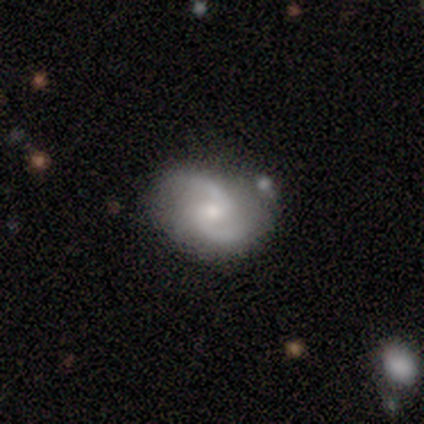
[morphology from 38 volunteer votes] Volunteers were most divided on "bulge size": moderate: 50%, small: 47%, dominant: 3%, large: 0%, none: 0%. More confident: edge-on disk — no (97%); spiral arm count — 2 (93%); spiral arms — yes (90%); smooth or featured — featured or disk (82%); merging — none (71%); bar — weak (63%); spiral winding — medium (63%).